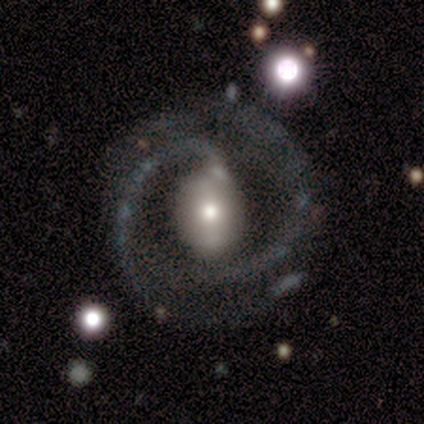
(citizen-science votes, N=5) A featured or disk galaxy (100%) with a strong bar (40%, tied with weak), 2 (80%) medium (60%) spiral arms (100%) and a moderate central bulge (80%). Merging: none (100%).